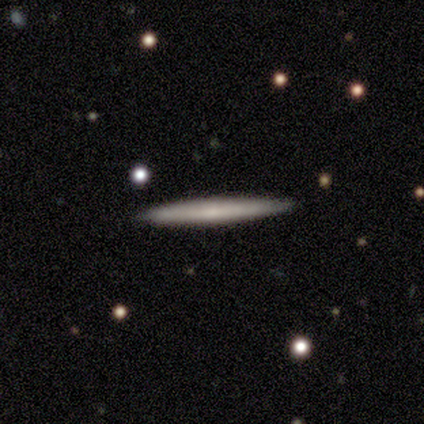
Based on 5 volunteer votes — smooth-or-featured: smooth: 60% | featured or disk: 40% | star or artifact: 0%
  how-rounded: cigar-shaped: 100% | round: 0% | in between: 0%
  merging: none: 100% | minor disturbance: 0% | major disturbance: 0% | merger: 0%